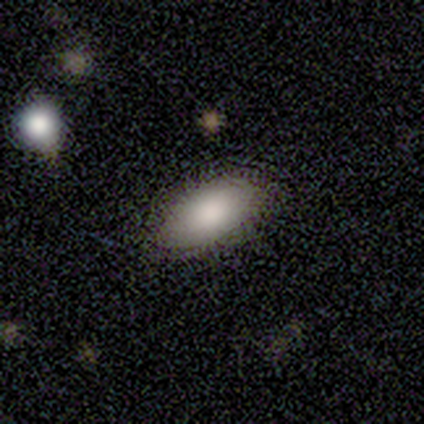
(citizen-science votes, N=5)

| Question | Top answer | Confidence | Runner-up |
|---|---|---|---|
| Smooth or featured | smooth | 100% | — |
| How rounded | in between | 100% | — |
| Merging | none | 80% | minor disturbance (20%) |